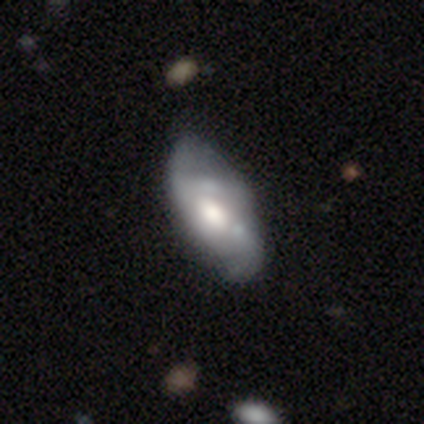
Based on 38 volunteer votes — smooth-or-featured: featured or disk: 55% | smooth: 39% | star or artifact: 5%
  disk-edge-on: no: 90% | yes: 10%
    bar: no: 53% | weak: 47% | strong: 0%
    has-spiral-arms: yes: 74% | no: 26%
      spiral-winding: loose: 57% | medium: 43% | tight: 0%
      spiral-arm-count: 2: 64% | 3: 14% | can't tell: 14% | 1: 7% | 4: 0% | more than 4: 0%
    bulge-size: moderate: 63% | large: 32% | small: 5% | dominant: 0% | none: 0%
  merging: none: 47% | minor disturbance: 36% | merger: 11% | major disturbance: 6%